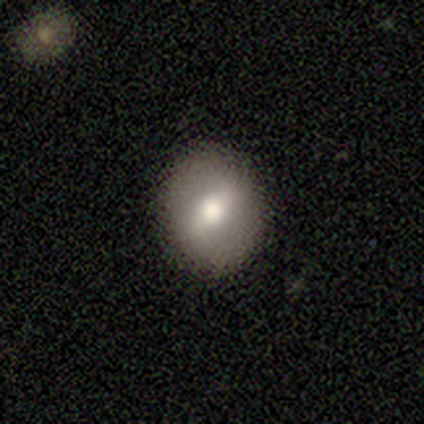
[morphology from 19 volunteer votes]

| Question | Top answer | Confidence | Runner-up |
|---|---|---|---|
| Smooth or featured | smooth | 53% | featured or disk (42%) |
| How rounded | in between | 60% | round (40%) |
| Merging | none | 89% | minor disturbance (11%) |